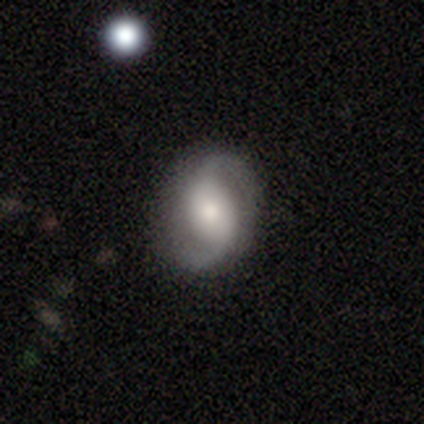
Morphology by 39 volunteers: Overall: featured or disk (82%). Edge-on disk: no (100%). Bar: no (44%; weak 41%). Spiral arms: yes (97%). Spiral arm count: 2 (94%). Spiral winding: loose (55%; medium 35%). Bulge size: moderate (44%; small 31%). Merging: none (87%).